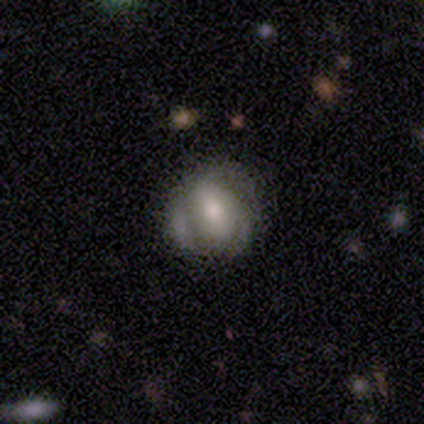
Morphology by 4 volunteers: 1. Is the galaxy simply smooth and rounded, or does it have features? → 75% smooth, 25% featured or disk, 0% star or artifact.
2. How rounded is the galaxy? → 67% round, 33% in between, 0% cigar-shaped.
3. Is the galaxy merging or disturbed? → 75% none, 25% minor disturbance, 0% major disturbance, 0% merger.